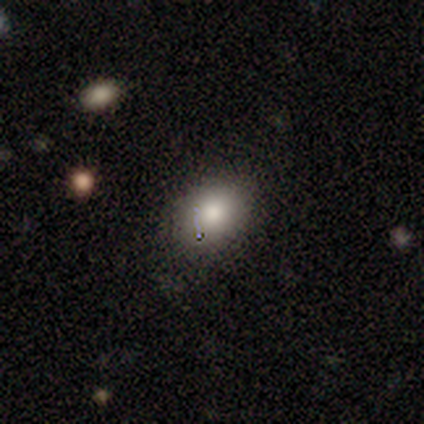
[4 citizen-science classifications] Overall: smooth (50%; featured or disk 25%). How rounded: round (50%, tied with in between). Merging: none (67%; minor disturbance 33%).